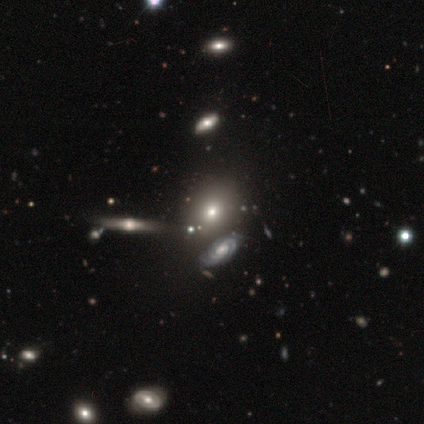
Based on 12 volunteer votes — Overall: smooth (50%; featured or disk 33%). How rounded: in between (67%; round 33%). Merging: none (100%).